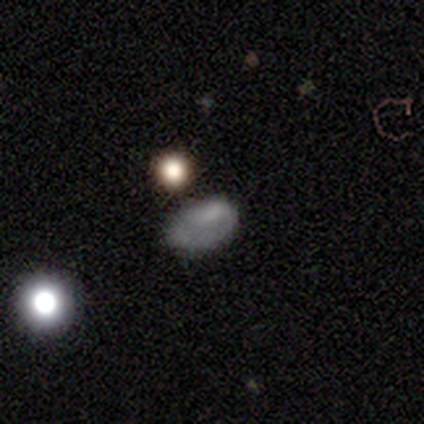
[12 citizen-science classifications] smooth 58%, featured or disk 25%, star or artifact 17%. Down the decision tree: how rounded — in between (86%); merging — none (50%).